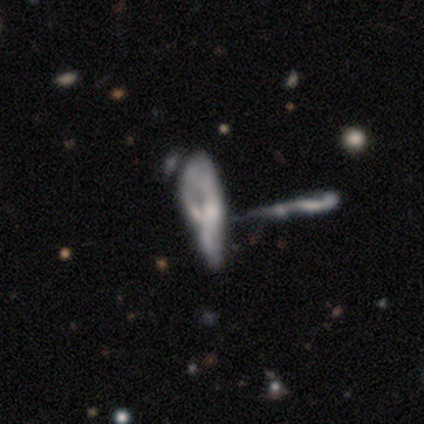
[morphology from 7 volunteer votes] smooth-or-featured: featured or disk: 57% | smooth: 43% | star or artifact: 0%
  disk-edge-on: no: 100% | yes: 0%
    bar: no: 75% | weak: 25% | strong: 0%
    has-spiral-arms: no: 100% | yes: 0%
    bulge-size: small: 75% | none: 25% | dominant: 0% | large: 0% | moderate: 0%
  merging: merger: 71% | major disturbance: 29% | none: 0% | minor disturbance: 0%